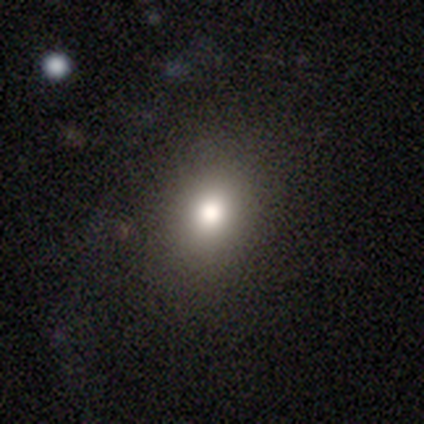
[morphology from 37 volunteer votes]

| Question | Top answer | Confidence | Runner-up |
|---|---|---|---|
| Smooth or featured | smooth | 68% | star or artifact (24%) |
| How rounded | round | 60% | in between (40%) |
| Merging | none | 79% | minor disturbance (21%) |